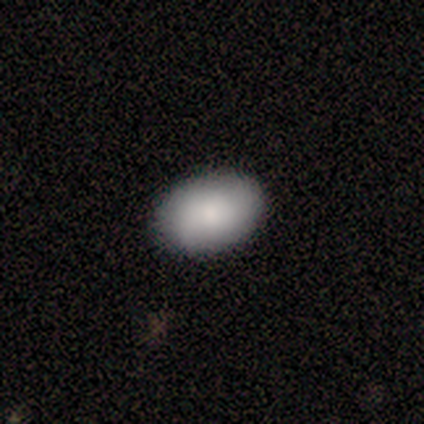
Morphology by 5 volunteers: smooth-or-featured: smooth: 60% | featured or disk: 40% | star or artifact: 0%
  how-rounded: in between: 100% | round: 0% | cigar-shaped: 0%
  merging: none: 100% | minor disturbance: 0% | major disturbance: 0% | merger: 0%